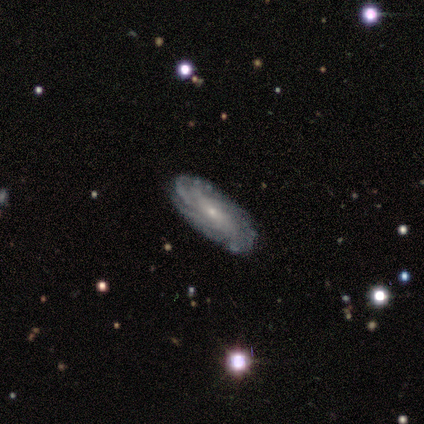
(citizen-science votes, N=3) smooth-or-featured: featured or disk: 67% | star or artifact: 33% | smooth: 0%
  disk-edge-on: no: 100% | yes: 0%
    bar: strong: 50% (tied) | no: 50% (tied) | weak: 0%
    has-spiral-arms: yes: 100% | no: 0%
      spiral-winding: tight: 100% | medium: 0% | loose: 0%
      spiral-arm-count: can't tell: 100% | 1: 0% | 2: 0% | 3: 0% | 4: 0% | more than 4: 0%
    bulge-size: small: 100% | dominant: 0% | large: 0% | moderate: 0% | none: 0%
  merging: none: 100% | minor disturbance: 0% | major disturbance: 0% | merger: 0%